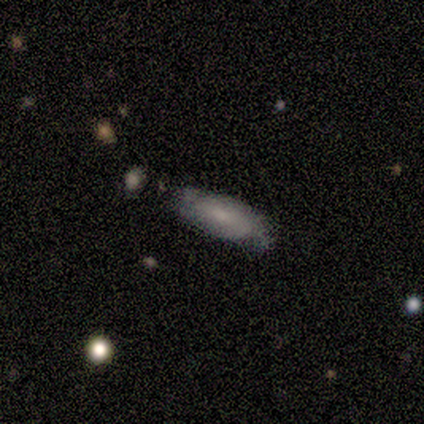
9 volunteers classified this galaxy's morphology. Smooth or featured?
  - smooth: 67% *
  - featured or disk: 33%
  - star or artifact: 0%
How rounded?
  - in between: 83% *
  - cigar-shaped: 17%
  - round: 0%
Merging?
  - minor disturbance: 56% *
  - none: 33%
  - merger: 11%
  - major disturbance: 0%